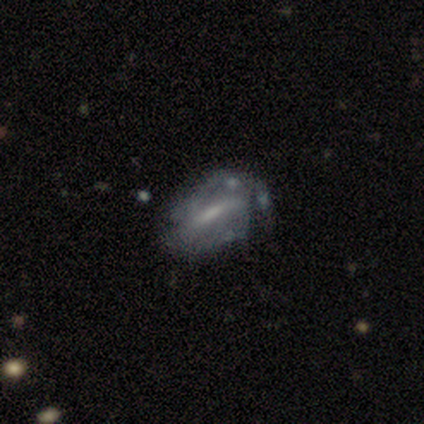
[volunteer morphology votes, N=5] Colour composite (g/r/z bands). It shows a smooth galaxy with no disk features (40%, tied with featured or disk) that is in between round and cigar-shaped (100%). Merging: minor disturbance (50%).